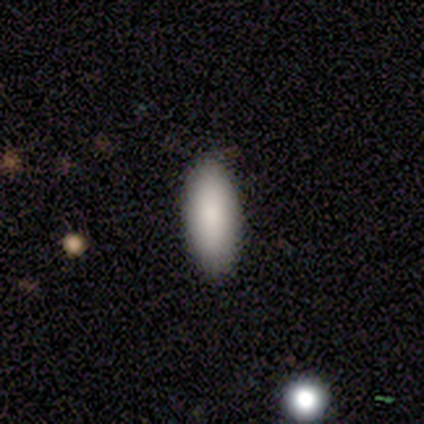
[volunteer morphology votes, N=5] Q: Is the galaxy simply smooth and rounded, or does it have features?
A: smooth — 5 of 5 (100%).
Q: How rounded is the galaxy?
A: in between — 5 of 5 (100%).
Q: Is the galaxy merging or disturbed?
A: none — 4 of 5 (80%).